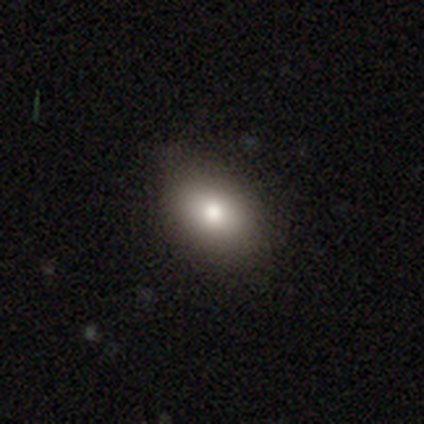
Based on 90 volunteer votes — Smooth or featured? 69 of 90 (77%) said smooth. How rounded? 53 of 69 (77%) said in between. Merging? 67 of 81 (83%) said none.